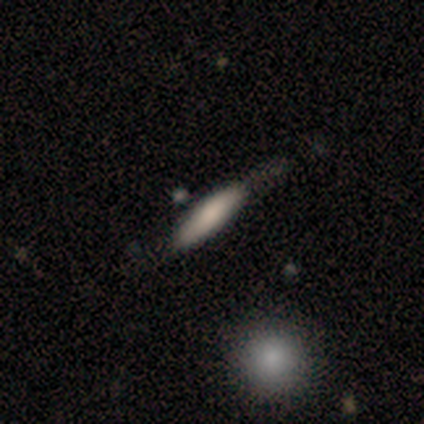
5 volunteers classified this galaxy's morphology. smooth-or-featured: smooth: 100% | featured or disk: 0% | star or artifact: 0%
  how-rounded: in between: 60% | cigar-shaped: 40% | round: 0%
  merging: none: 40% (tied) | major disturbance: 40% (tied) | minor disturbance: 20% | merger: 0%